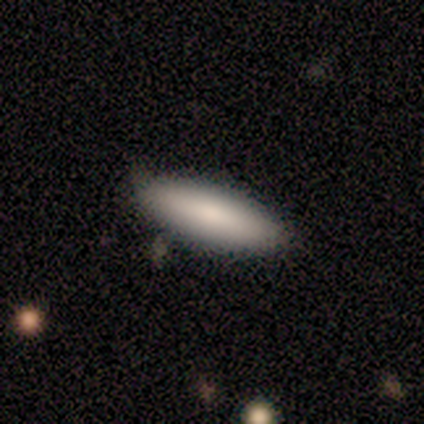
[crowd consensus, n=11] A smooth galaxy with no disk features (91%) that is in between round and cigar-shaped (60%).

Vote fractions:
- Smooth or featured? smooth: 91% / featured or disk: 9% / star or artifact: 0%
- How rounded? in between: 60% / cigar-shaped: 40% / round: 0%
- Merging? none: 82% / minor disturbance: 9% / major disturbance: 9% / merger: 0%